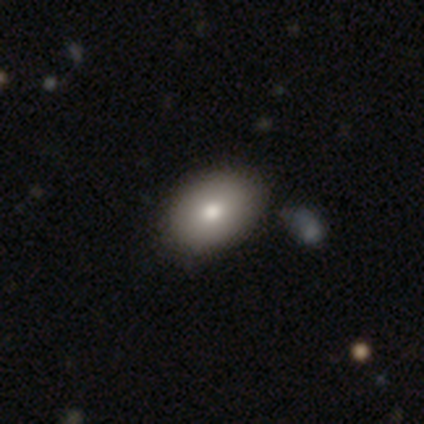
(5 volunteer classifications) Q: Smooth or featured?
A: smooth (100%)
Q: How rounded?
A: round (60%); runner-up: in between (40%)
Q: Merging?
A: none (80%); runner-up: minor disturbance (20%)